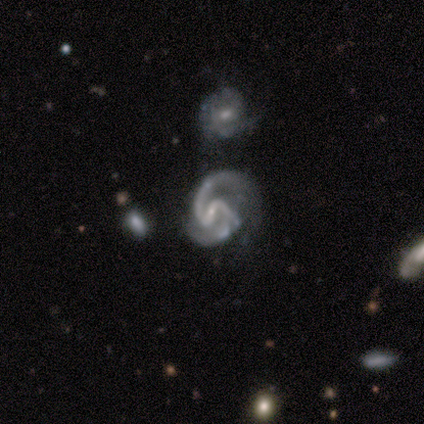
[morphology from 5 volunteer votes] smooth-or-featured: featured or disk: 100% | smooth: 0% | star or artifact: 0%
  disk-edge-on: no: 100% | yes: 0%
    bar: strong: 60% | weak: 40% | no: 0%
    has-spiral-arms: yes: 100% | no: 0%
      spiral-winding: medium: 80% | loose: 20% | tight: 0%
      spiral-arm-count: 2: 100% | 1: 0% | 3: 0% | 4: 0% | more than 4: 0% | can't tell: 0%
    bulge-size: small: 60% | moderate: 20% | none: 20% | dominant: 0% | large: 0%
  merging: none: 40% | minor disturbance: 20% | major disturbance: 20% | merger: 20%